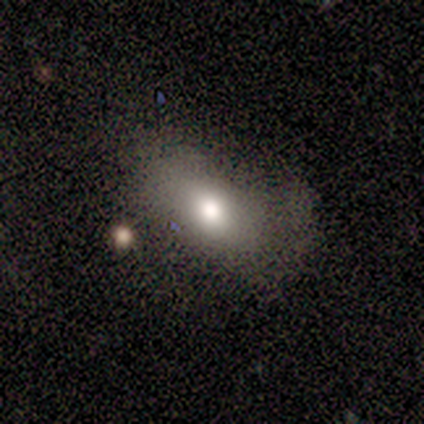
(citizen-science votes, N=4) Q: Smooth or featured?
A: smooth (50%); tied with: star or artifact (50%)
Q: How rounded?
A: in between (100%)
Q: Merging?
A: none (50%); tied with: major disturbance (50%)